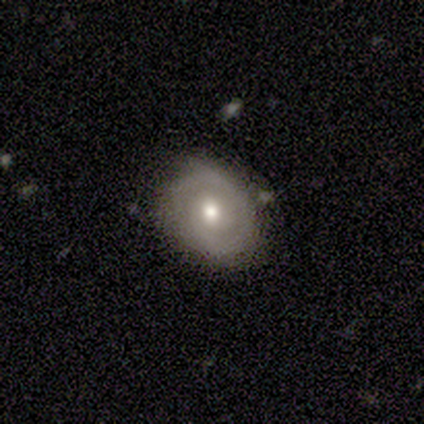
Overall: featured or disk (100%). Edge-on disk: no (100%). Bar: no (100%). Spiral arms: yes (80%). Spiral arm count: 1 (50%; 2 25%). Spiral winding: tight (50%, tied with medium). Bulge size: moderate (60%; large 20%). Merging: none (80%).